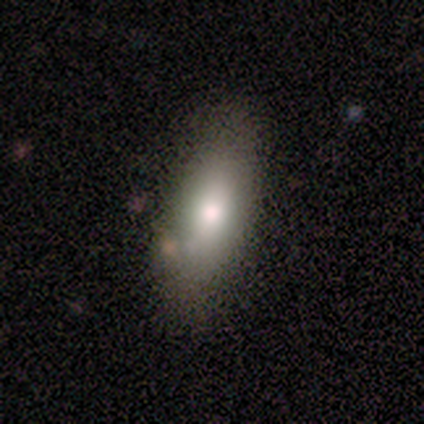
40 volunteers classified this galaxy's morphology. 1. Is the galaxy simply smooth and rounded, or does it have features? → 90% smooth, 8% featured or disk, 2% star or artifact.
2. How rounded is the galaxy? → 89% in between, 11% cigar-shaped, 0% round.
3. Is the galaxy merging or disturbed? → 46% none, 8% minor disturbance, 5% merger, 3% major disturbance.